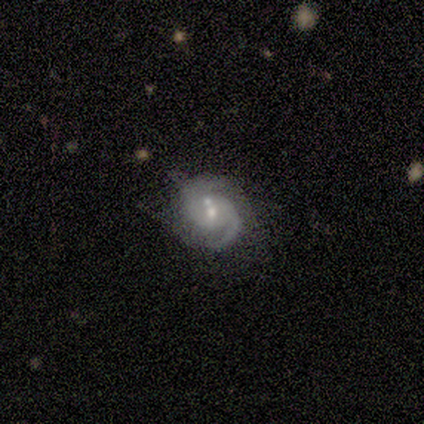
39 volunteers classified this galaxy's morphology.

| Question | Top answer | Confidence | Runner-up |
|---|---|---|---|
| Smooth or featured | featured or disk | 90% | smooth (5%) |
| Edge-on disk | no | 94% | yes (6%) |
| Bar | no | 76% | weak (21%) |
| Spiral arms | yes | 97% | no (3%) |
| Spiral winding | medium | 44% | tight (31%) |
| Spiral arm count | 2 | 94% | 1 (6%) |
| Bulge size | small | 58% | moderate (36%) |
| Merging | none | 59% | minor disturbance (24%) |